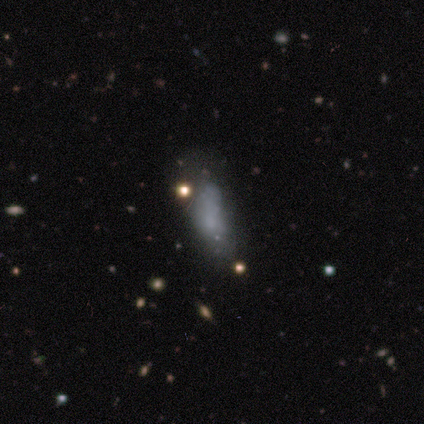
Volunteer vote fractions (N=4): A smooth galaxy with no disk features (75%) that is in between round and cigar-shaped (100%).

Vote fractions:
- Smooth or featured? smooth: 75% / featured or disk: 25% / star or artifact: 0%
- How rounded? in between: 100% / round: 0% / cigar-shaped: 0%
- Merging? none: 50% (tied) / minor disturbance: 50% (tied) / major disturbance: 0% / merger: 0%